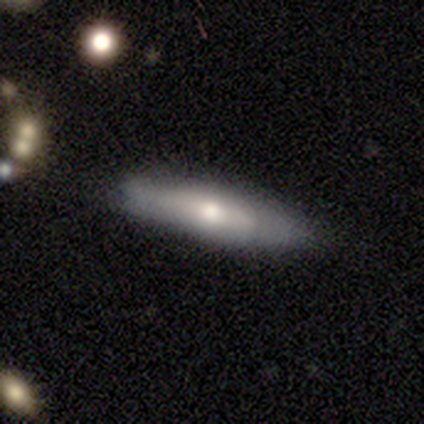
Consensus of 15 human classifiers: smooth_or_featured: smooth (p=0.73) [alt: featured or disk p=0.27]
how_rounded: cigar-shaped (p=0.64) [alt: in between p=0.36]
merging: none (p=0.80) [alt: minor disturbance p=0.20]